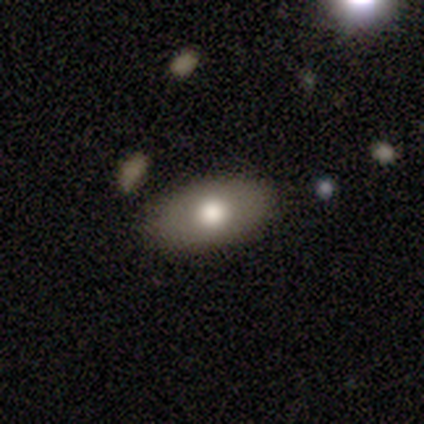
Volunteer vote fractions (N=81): Smooth or featured: smooth — 77% (featured or disk — 19%)
How rounded: in between — 92% (round — 5%)
Merging: none — 48% (minor disturbance — 4%)